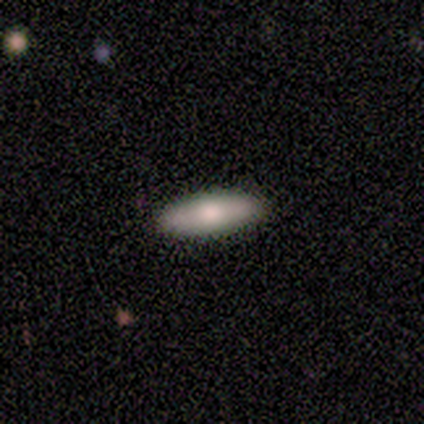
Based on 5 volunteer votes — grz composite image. It shows a smooth galaxy with no disk features (100%) that is in between round and cigar-shaped (60%). Merging: none (100%).